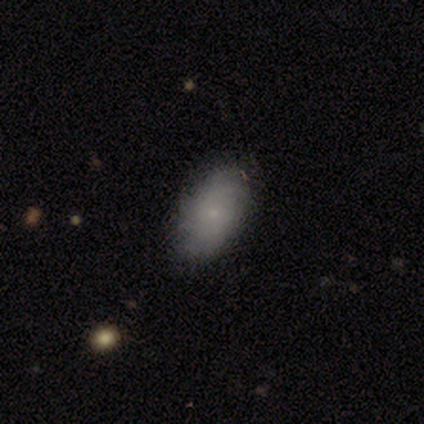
This is possibly a smooth galaxy (50%). How rounded: clearly in between (100%). Merging: likely none (75%).